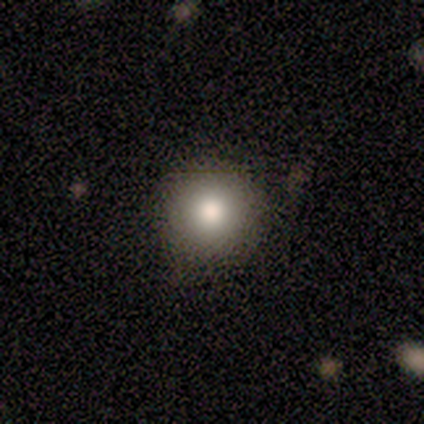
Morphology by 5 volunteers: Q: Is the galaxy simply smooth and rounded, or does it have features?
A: smooth — 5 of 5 (100%).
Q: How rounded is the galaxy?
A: round — 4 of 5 (80%).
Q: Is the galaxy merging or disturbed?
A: none — 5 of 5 (100%).